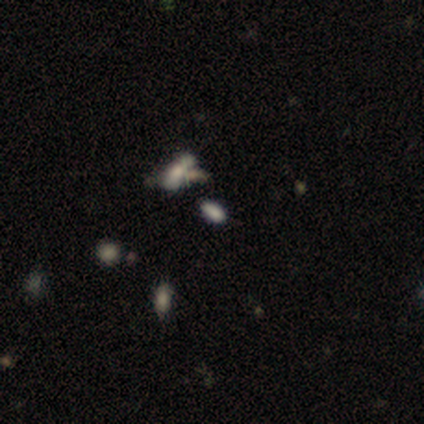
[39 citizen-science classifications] A smooth galaxy with no disk features (54%) that is in between round and cigar-shaped (100%).

Vote fractions:
- Smooth or featured? smooth: 54% / star or artifact: 31% / featured or disk: 15%
- How rounded? in between: 100% / round: 0% / cigar-shaped: 0%
- Merging? none: 52% / merger: 33% / minor disturbance: 11% / major disturbance: 4%